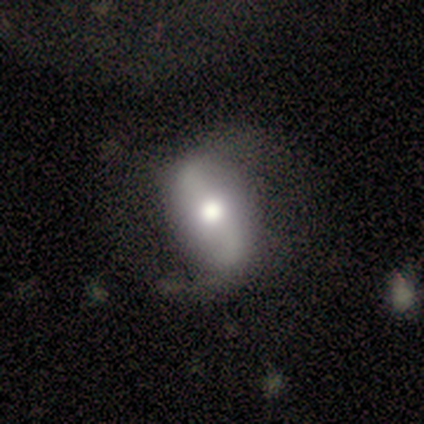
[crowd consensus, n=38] Volunteers were most divided on "bar": no: 39%, strong: 35%, weak: 26%. More confident: edge-on disk — no (96%); spiral arm count — 2 (89%); spiral winding — loose (84%); spiral arms — yes (83%); bulge size — moderate (70%); smooth or featured — featured or disk (63%); merging — none (62%).